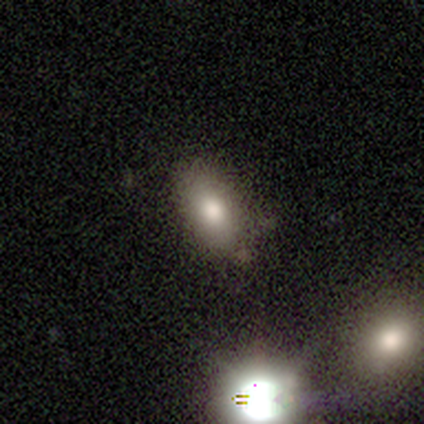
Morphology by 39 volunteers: Smooth or featured? smooth (72%)
How rounded? in between (93%)
Merging? none (69%)